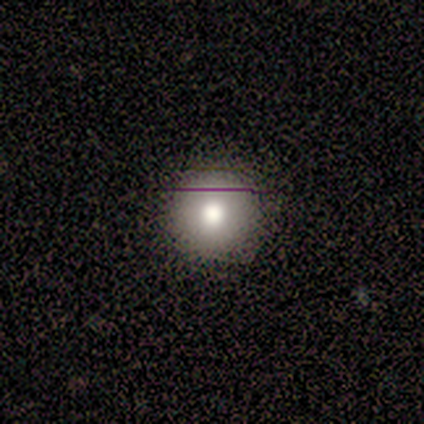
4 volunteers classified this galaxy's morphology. smooth_or_featured: smooth (p=1.00)
how_rounded: round (p=1.00)
merging: none (p=1.00)